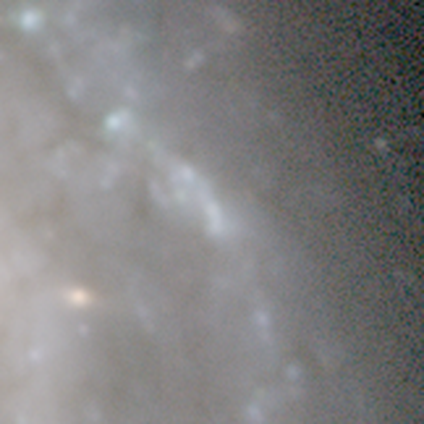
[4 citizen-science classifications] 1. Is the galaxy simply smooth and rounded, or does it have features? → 100% star or artifact, 0% smooth, 0% featured or disk.